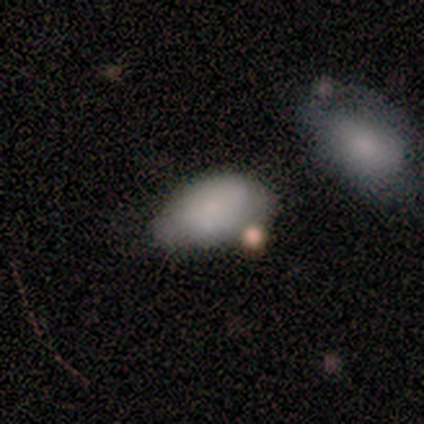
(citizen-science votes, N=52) smooth 85%, featured or disk 12%, star or artifact 4%. Down the decision tree: how rounded — in between (98%); merging — minor disturbance (48%).